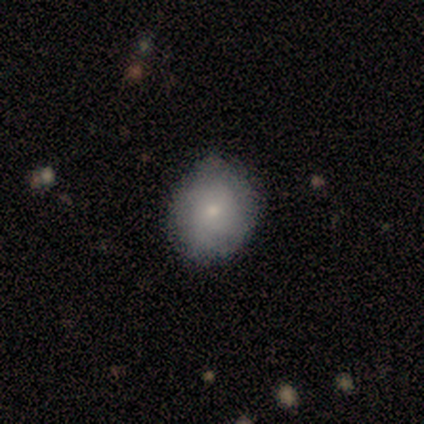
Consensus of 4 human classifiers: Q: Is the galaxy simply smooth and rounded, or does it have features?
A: smooth — 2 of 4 (50%, tied with featured or disk).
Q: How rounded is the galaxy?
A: round — 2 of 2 (100%).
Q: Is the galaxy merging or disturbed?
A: none — 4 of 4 (100%).